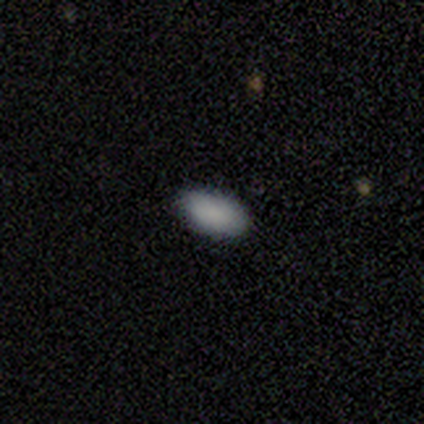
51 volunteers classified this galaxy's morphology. This appears to be a smooth galaxy with no disk features (90%) that is in between round and cigar-shaped (93%). Merging: none (92%).